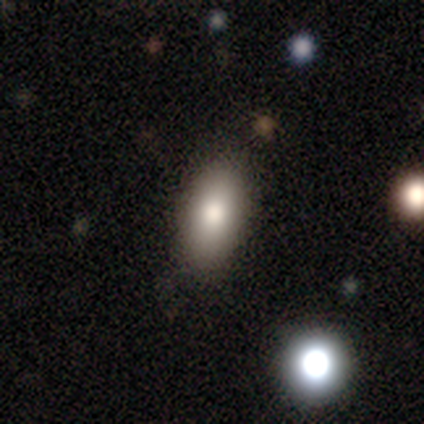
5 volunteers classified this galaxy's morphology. Smooth or featured: featured or disk — 60% (smooth — 40%)
Edge-on disk: no — 67% (yes — 33%)
Bar: no — 100%
Spiral arms: no — 100%
Bulge size: moderate — 100%
Merging: none — 80% (major disturbance — 20%)